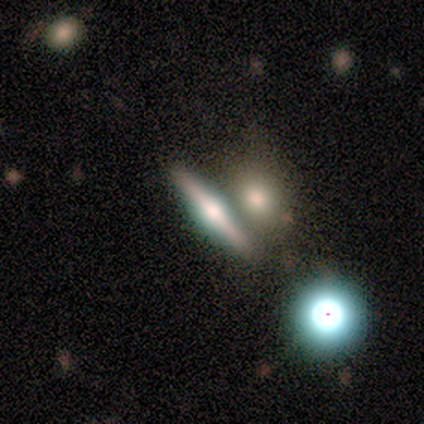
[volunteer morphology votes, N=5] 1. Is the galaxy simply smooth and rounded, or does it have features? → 80% featured or disk, 20% smooth, 0% star or artifact.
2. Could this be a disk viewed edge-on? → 100% yes, 0% no.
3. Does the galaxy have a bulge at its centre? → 75% rounded, 25% boxy, 0% none.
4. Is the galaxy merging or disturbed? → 80% none, 20% merger, 0% minor disturbance, 0% major disturbance.